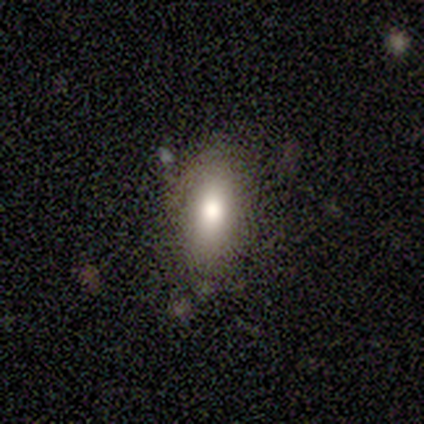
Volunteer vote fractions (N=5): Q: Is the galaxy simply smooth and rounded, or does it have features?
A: smooth — 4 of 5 (80%).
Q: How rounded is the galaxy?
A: in between — 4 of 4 (100%).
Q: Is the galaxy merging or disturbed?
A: none — 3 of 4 (75%).